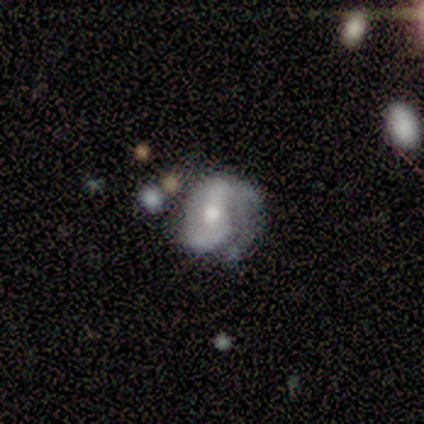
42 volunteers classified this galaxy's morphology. Smooth or featured?
  - featured or disk: 86% *
  - smooth: 10%
  - star or artifact: 5%
Edge-on disk?
  - no: 100% *
  - yes: 0%
Bar?
  - no: 50% *
  - weak: 31%
  - strong: 19%
Spiral arms?
  - yes: 92% *
  - no: 8%
Spiral winding?
  - loose: 45% *
  - tight: 27%
  - medium: 27%
Spiral arm count?
  - 2: 76% *
  - 1: 12%
  - can't tell: 6%
  - 3: 3%
  - 4: 3%
  - more than 4: 0%
Bulge size?
  - moderate: 67% *
  - small: 22%
  - large: 6%
  - dominant: 3%
  - none: 3%
Merging?
  - none: 50% *
  - minor disturbance: 25%
  - major disturbance: 25%
  - merger: 0%